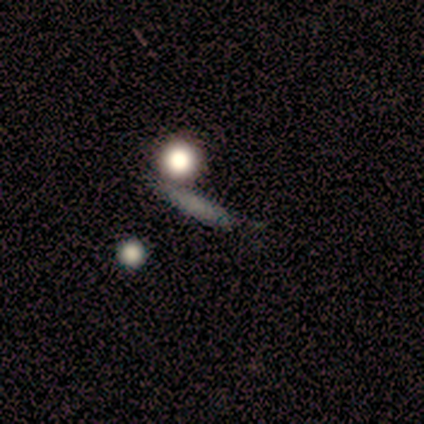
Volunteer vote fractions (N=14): Volunteers were most divided on "smooth or featured": smooth: 64%, featured or disk: 29%, star or artifact: 7%. More confident: how rounded — cigar-shaped (78%); merging — none (62%).